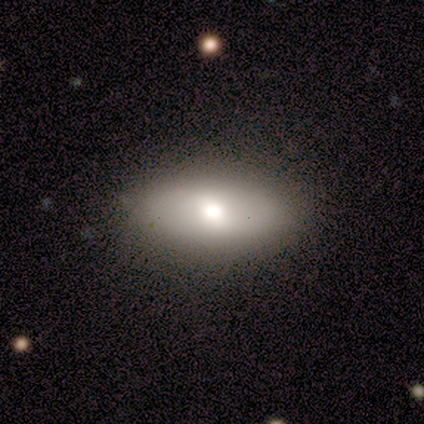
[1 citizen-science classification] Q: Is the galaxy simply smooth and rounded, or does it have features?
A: smooth — 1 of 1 (100%).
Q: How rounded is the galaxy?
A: in between — 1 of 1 (100%).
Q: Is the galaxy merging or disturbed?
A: none — 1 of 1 (100%).